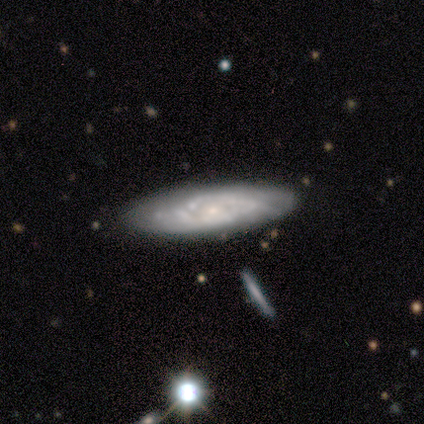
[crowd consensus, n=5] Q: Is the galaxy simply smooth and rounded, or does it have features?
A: featured or disk — 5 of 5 (100%).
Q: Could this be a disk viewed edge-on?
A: no — 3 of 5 (60%).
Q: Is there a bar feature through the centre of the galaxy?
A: no — 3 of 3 (100%).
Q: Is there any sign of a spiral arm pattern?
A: yes — 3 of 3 (100%).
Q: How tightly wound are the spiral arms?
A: tight — 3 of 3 (100%).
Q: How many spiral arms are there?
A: can't tell — 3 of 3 (100%).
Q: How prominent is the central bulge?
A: small — 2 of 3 (67%).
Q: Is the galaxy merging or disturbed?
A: none — 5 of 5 (100%).